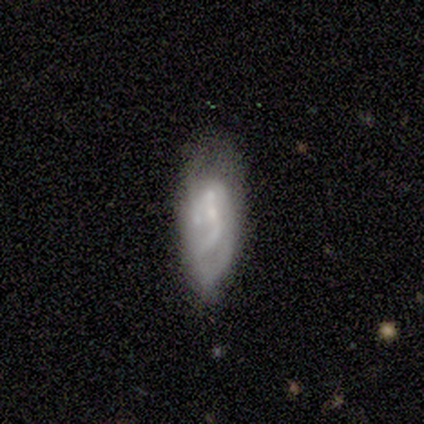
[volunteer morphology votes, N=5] Smooth or featured?
  - featured or disk: 80% *
  - star or artifact: 20%
  - smooth: 0%
Edge-on disk?
  - no: 75% *
  - yes: 25%
Bar?
  - no: 67% *
  - weak: 33%
  - strong: 0%
Spiral arms?
  - no: 67% *
  - yes: 33%
Bulge size?
  - small: 67% *
  - none: 33%
  - dominant: 0%
  - large: 0%
  - moderate: 0%
Merging?
  - none: 50% *
  - minor disturbance: 25%
  - major disturbance: 25%
  - merger: 0%